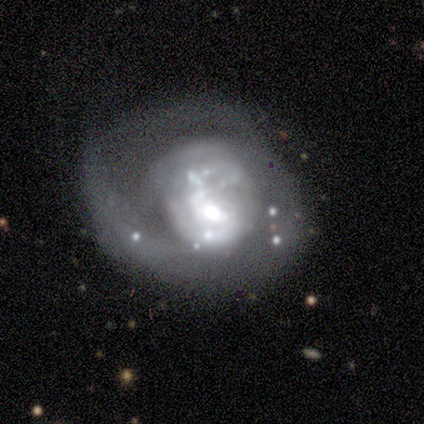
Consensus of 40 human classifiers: Smooth or featured? 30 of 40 (75%) said featured or disk. Edge-on disk? 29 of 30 (97%) said no. Bar? 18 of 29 (62%) said no. Spiral arms? 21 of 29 (72%) said yes. Spiral winding? 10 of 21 (48%) said medium. Spiral arm count? 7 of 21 (33%) said can't tell. Bulge size? 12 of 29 (41%) said moderate. Merging? 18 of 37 (49%) said major disturbance.